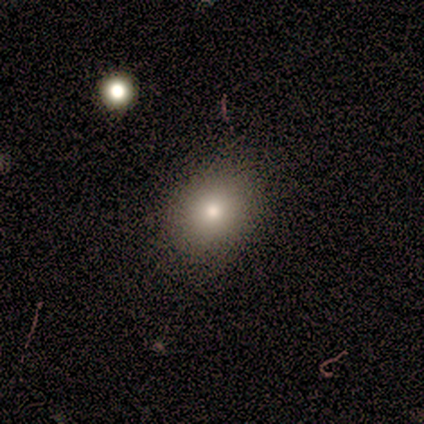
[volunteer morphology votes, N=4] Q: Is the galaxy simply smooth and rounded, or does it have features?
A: smooth — 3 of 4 (75%).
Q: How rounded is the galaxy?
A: round — 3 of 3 (100%).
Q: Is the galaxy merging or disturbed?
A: none — 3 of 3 (100%).